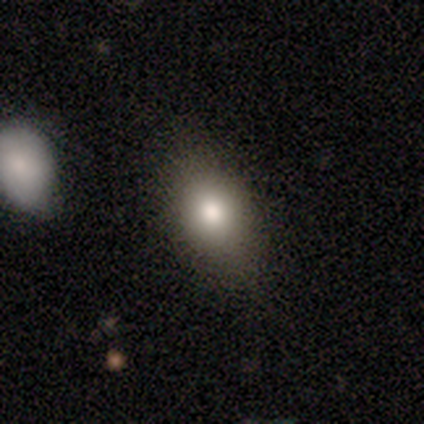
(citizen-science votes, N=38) Volunteers were most divided on "merging": none: 63%, minor disturbance: 31%, major disturbance: 3%, merger: 3%. More confident: smooth or featured — smooth (76%); how rounded — in between (76%).